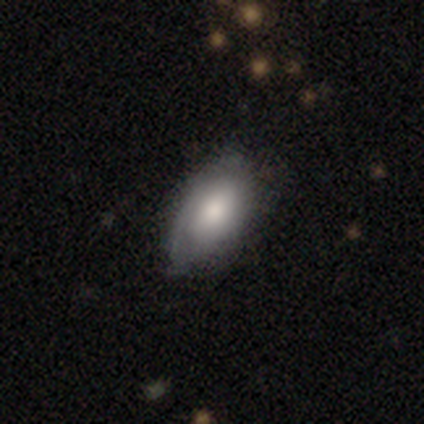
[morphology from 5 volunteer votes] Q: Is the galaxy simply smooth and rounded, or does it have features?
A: smooth — 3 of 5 (60%).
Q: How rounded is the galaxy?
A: in between — 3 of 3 (100%).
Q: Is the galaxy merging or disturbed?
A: none — 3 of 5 (60%).